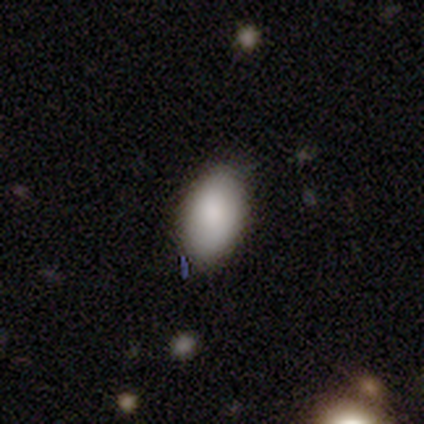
This is clearly a smooth galaxy (100%). How rounded: clearly in between (100%). Merging: clearly none (100%).